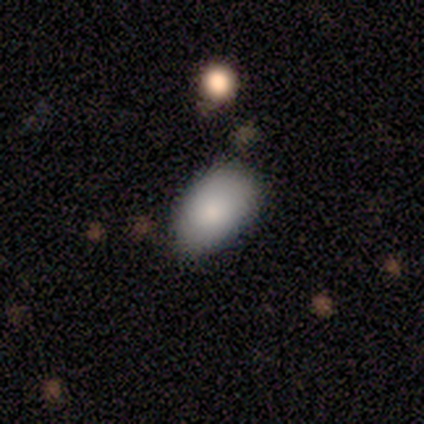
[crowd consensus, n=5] smooth 100%, featured or disk 0%, star or artifact 0%. Down the decision tree: how rounded — in between (100%); merging — minor disturbance (60%).